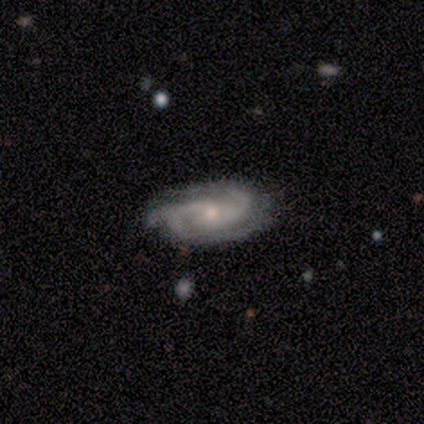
This is clearly a featured or disk galaxy (80%). It is clearly not viewed edge-on (100%). Bar: clearly no (100%). Spiral arm pattern: clearly yes (100%). Spiral arm count: possibly 2 (50%, tied with 3). Spiral winding: clearly medium (100%). Central bulge: likely small (75%). Merging: clearly none (100%).